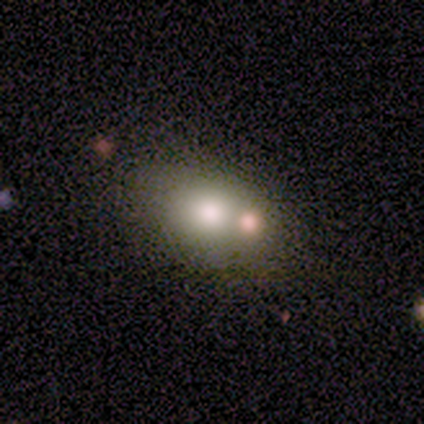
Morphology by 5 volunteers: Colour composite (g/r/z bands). It shows a smooth galaxy with no disk features (60%) that is in between round and cigar-shaped (67%). Merging: none (40%, tied with merger).